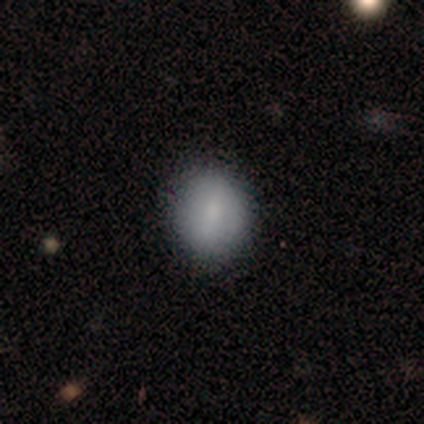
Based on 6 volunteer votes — Smooth or featured?
  - smooth: 100% *
  - featured or disk: 0%
  - star or artifact: 0%
How rounded?
  - round: 83% *
  - in between: 17%
  - cigar-shaped: 0%
Merging?
  - none: 67% *
  - minor disturbance: 33%
  - major disturbance: 0%
  - merger: 0%